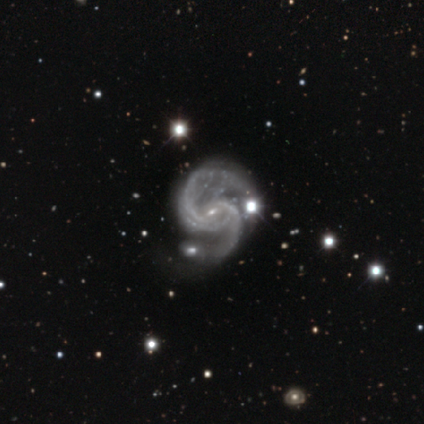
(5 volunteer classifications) Smooth or featured? 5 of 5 (100%) said featured or disk. Edge-on disk? 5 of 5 (100%) said no. Bar? 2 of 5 (40%, tied with weak) said strong. Spiral arms? 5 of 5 (100%) said yes. Spiral winding? 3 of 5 (60%) said medium. Spiral arm count? 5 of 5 (100%) said 2. Bulge size? 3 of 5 (60%) said small. Merging? 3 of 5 (60%) said none.